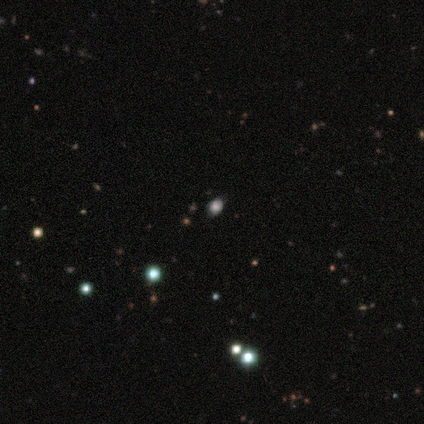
Overall: smooth (80%). How rounded: round (100%). Merging: none (50%; minor disturbance 25%).